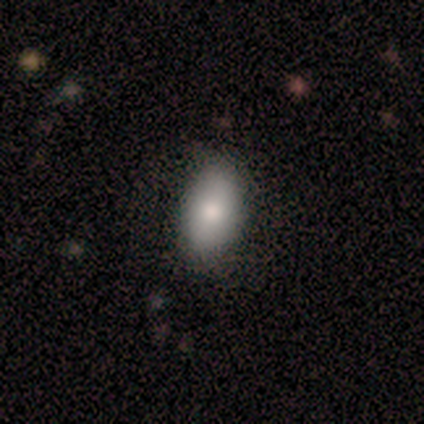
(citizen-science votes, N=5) Smooth or featured? 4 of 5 (80%) said smooth. How rounded? 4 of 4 (100%) said in between. Merging? 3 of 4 (75%) said none.